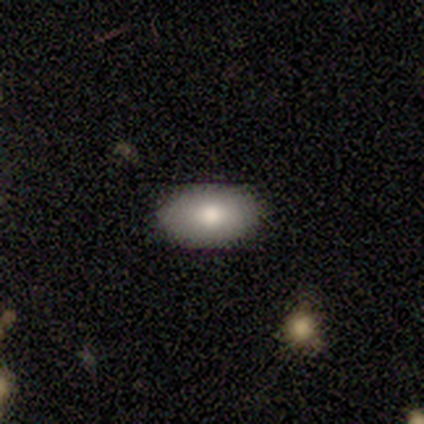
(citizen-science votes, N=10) A smooth galaxy with no disk features (60%) that is in between round and cigar-shaped (83%).

Vote fractions:
- Smooth or featured? smooth: 60% / featured or disk: 20% / star or artifact: 20%
- How rounded? in between: 83% / round: 17% / cigar-shaped: 0%
- Merging? none: 100% / minor disturbance: 0% / major disturbance: 0% / merger: 0%